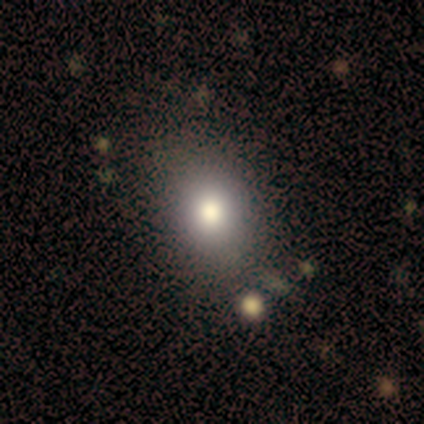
Q: Smooth or featured?
A: smooth (100%)
Q: How rounded?
A: in between (100%)
Q: Merging?
A: none (100%)